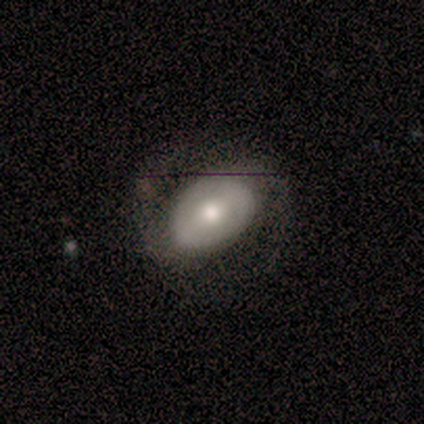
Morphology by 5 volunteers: Overall: featured or disk (60%; smooth 20%). Edge-on disk: no (100%). Bar: weak (100%). Spiral arms: yes (100%). Spiral arm count: 2 (100%). Spiral winding: medium (67%; loose 33%). Bulge size: moderate (100%). Merging: none (75%).